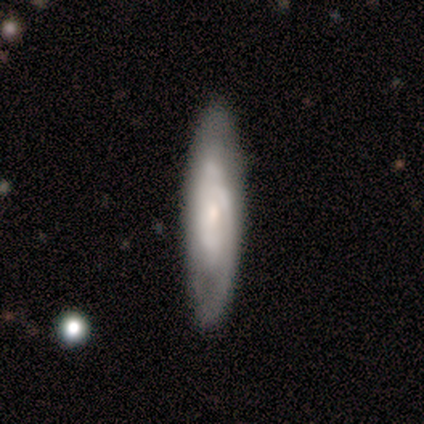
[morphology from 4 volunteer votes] Q: Smooth or featured?
A: featured or disk (75%); runner-up: smooth (25%)
Q: Edge-on disk?
A: yes (67%); runner-up: no (33%)
Q: Edge-on bulge?
A: none (100%)
Q: Merging?
A: none (75%); runner-up: minor disturbance (25%)